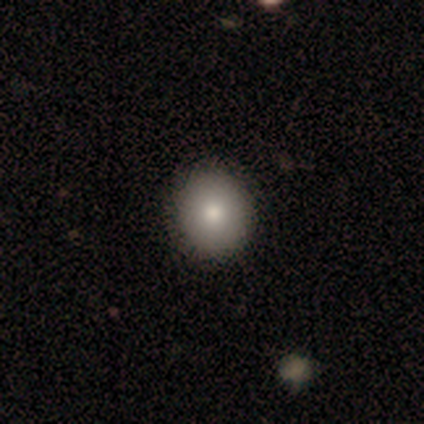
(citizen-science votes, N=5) Smooth or featured: smooth — 60% (star or artifact — 40%)
How rounded: round — 100%
Merging: none — 100%